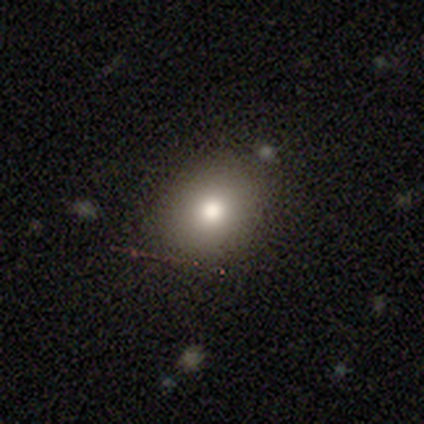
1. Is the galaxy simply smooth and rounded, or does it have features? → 84% smooth, 11% featured or disk, 5% star or artifact.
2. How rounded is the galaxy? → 66% round, 34% in between, 0% cigar-shaped.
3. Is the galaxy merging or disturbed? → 81% none, 11% minor disturbance, 6% major disturbance, 3% merger.